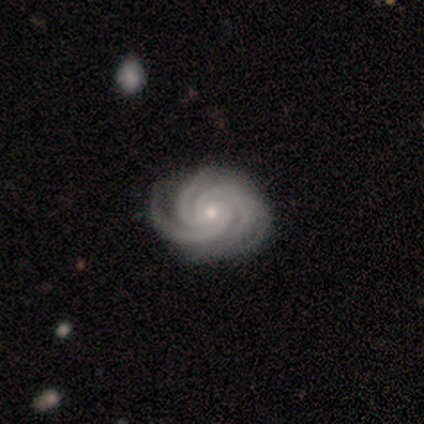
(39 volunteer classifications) Smooth or featured: featured or disk — 97% (smooth — 3%)
Edge-on disk: no — 100%
Bar: no — 79% (weak — 16%)
Spiral arms: yes — 100%
Spiral winding: tight — 95% (medium — 5%)
Spiral arm count: 3 — 71% (4 — 26%)
Bulge size: small — 76% (moderate — 21%)
Merging: none — 49% (minor disturbance — 15%)